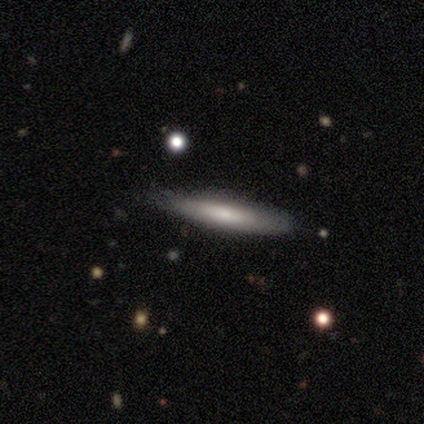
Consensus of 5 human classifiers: Smooth or featured: smooth — 80% (featured or disk — 20%)
How rounded: cigar-shaped — 100%
Merging: none — 80% (minor disturbance — 20%)